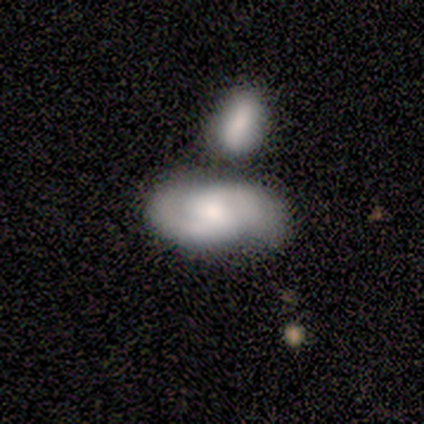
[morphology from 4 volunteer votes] Smooth or featured? 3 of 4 (75%) said smooth. How rounded? 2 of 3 (67%) said in between. Merging? 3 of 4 (75%) said merger.